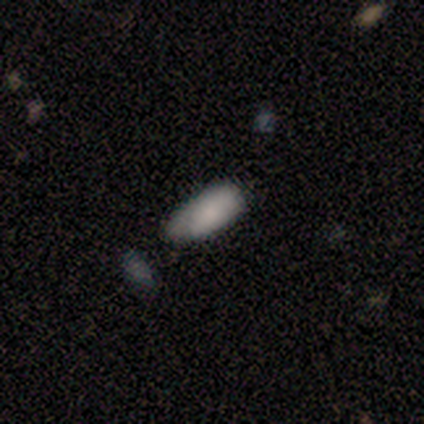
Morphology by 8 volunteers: type=smooth (75%); roundness=in between (100%); merging=none (57%).